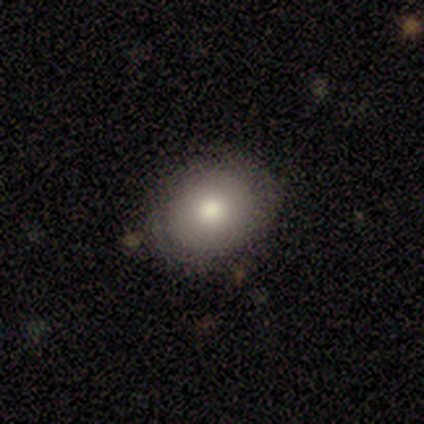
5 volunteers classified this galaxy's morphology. This is likely a featured or disk galaxy (60%). It is clearly not viewed edge-on (100%). Bar: likely no (67%). Spiral arm pattern: clearly no (100%). Central bulge: clearly moderate (100%). Merging: possibly none (50%, tied with minor disturbance).